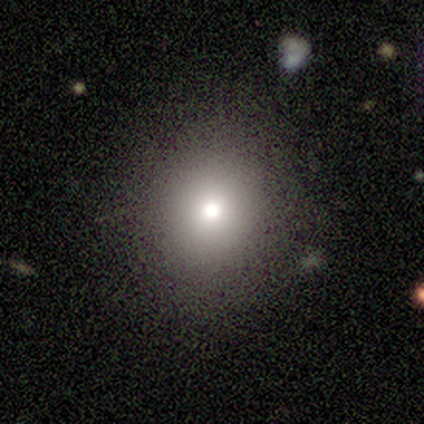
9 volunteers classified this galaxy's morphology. Volunteers were most divided on "smooth or featured": smooth: 78%, featured or disk: 22%, star or artifact: 0%. More confident: merging — none (89%); how rounded — round (86%).